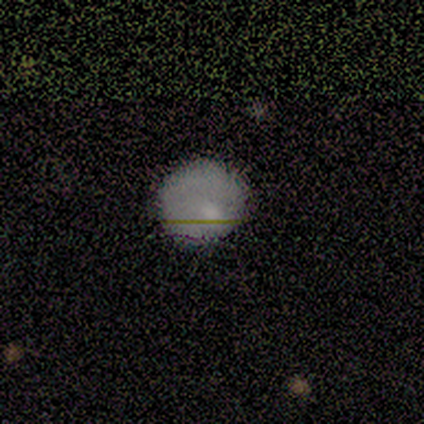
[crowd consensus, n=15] Q: Smooth or featured?
A: smooth (87%); runner-up: featured or disk (7%)
Q: How rounded?
A: round (100%)
Q: Merging?
A: none (71%); runner-up: major disturbance (14%)